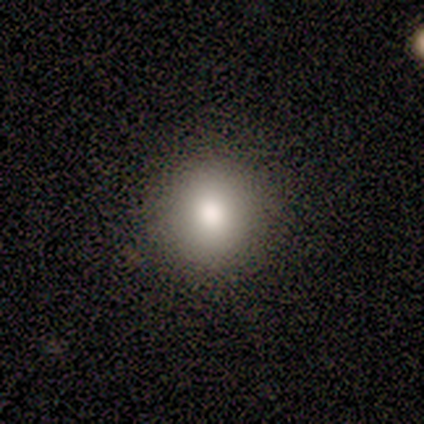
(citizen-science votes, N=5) Smooth or featured? smooth (100%)
How rounded? round (80%)
Merging? none (100%)